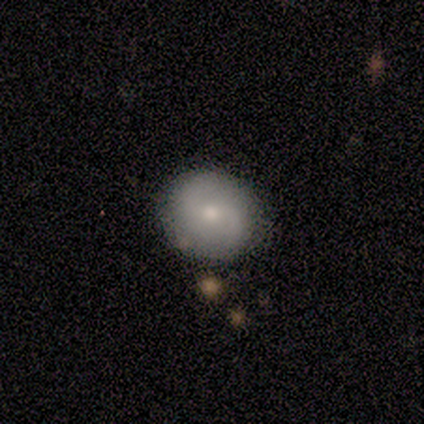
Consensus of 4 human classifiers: This is likely a smooth galaxy (75%). How rounded: clearly round (100%). Merging: possibly none (50%, tied with minor disturbance).